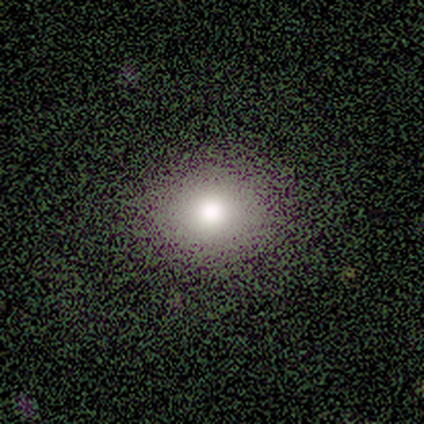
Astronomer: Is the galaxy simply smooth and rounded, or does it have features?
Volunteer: smooth — 60%.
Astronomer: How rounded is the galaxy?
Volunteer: round — 100%.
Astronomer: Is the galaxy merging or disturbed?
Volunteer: none — 75%.